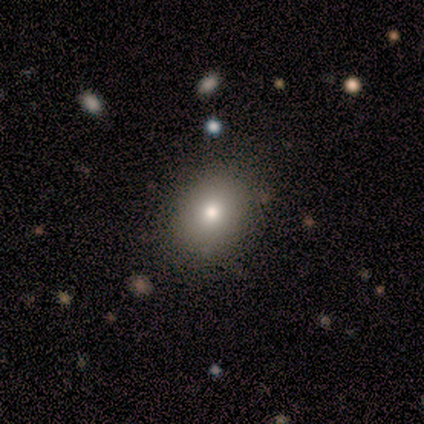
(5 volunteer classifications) smooth_or_featured: smooth (p=0.80) [alt: featured or disk p=0.20]
how_rounded: in between (p=0.75) [alt: round p=0.25]
merging: none (p=0.80) [alt: minor disturbance p=0.20]